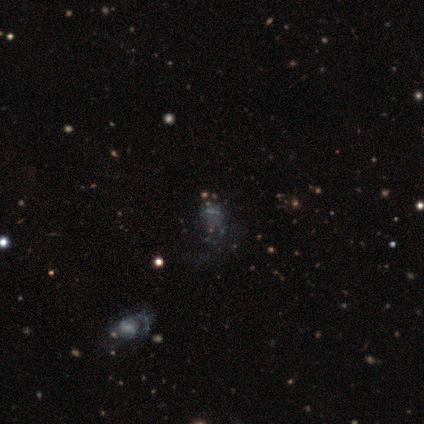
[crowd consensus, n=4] Morphology: type=star or artifact (50%).